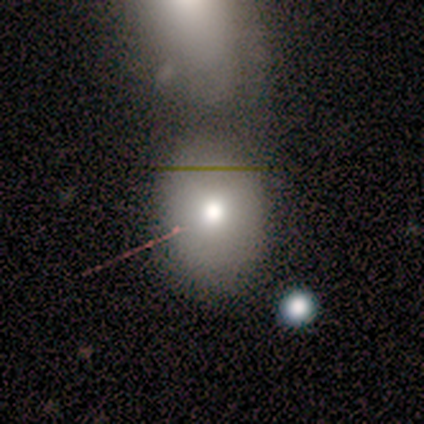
A smooth galaxy with no disk features (100%) that is in between round and cigar-shaped (67%). Merging: none (50%, tied with merger).